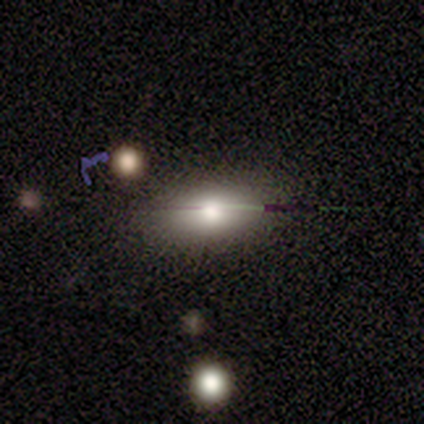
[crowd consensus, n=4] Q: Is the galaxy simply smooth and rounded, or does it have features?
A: featured or disk — 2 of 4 (50%).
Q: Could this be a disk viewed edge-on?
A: yes — 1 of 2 (50%, tied with no).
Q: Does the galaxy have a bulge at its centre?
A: rounded — 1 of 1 (100%).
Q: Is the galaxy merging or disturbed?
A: none — 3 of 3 (100%).